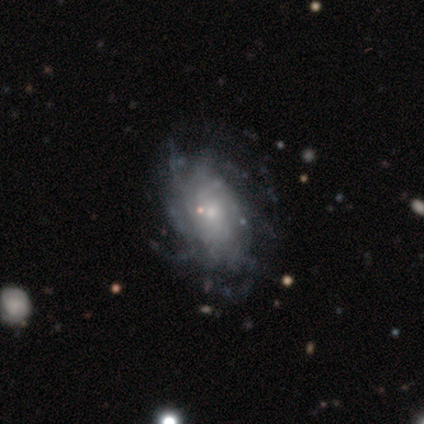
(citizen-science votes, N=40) Morphology: type=featured or disk (90%); edge-on=no (97%); bar=no (86%); spiral arms=yes (74%); winding=medium (38%); arm count=can't tell (46%); bulge=small (63%); merging=none (62%).